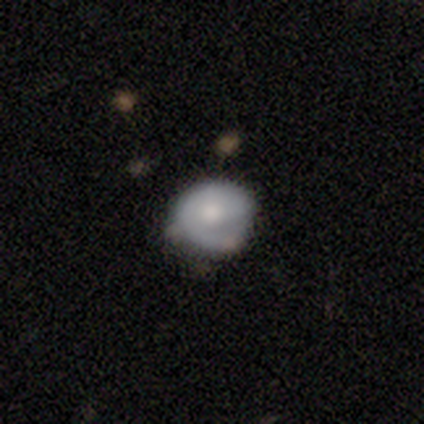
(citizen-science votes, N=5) Smooth or featured? featured or disk (100%)
Edge-on disk? no (100%)
Bar? no (100%)
Spiral arms? no (100%)
Bulge size? moderate (60%)
Merging? none (60%)